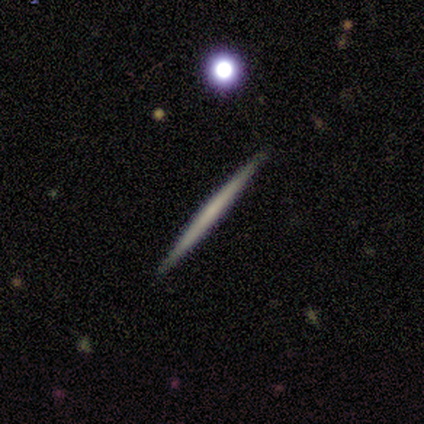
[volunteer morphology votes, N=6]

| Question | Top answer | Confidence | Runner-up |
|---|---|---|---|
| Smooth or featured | smooth | 50% | featured or disk (33%) |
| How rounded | cigar-shaped | 100% | — |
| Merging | none | 100% | — |